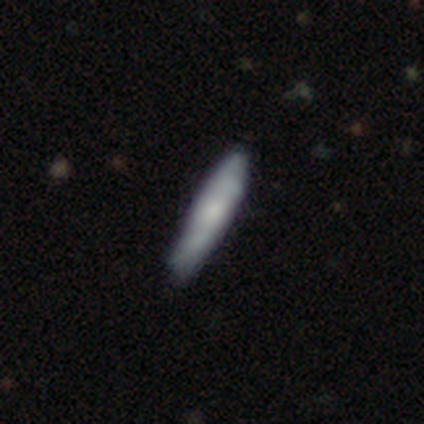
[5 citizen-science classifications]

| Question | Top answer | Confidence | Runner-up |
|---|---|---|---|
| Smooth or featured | featured or disk | 60% | smooth (20%) |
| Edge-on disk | yes | 67% | no (33%) |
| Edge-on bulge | none | 50% | tied: rounded (50%) |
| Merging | none | 75% | minor disturbance (25%) |